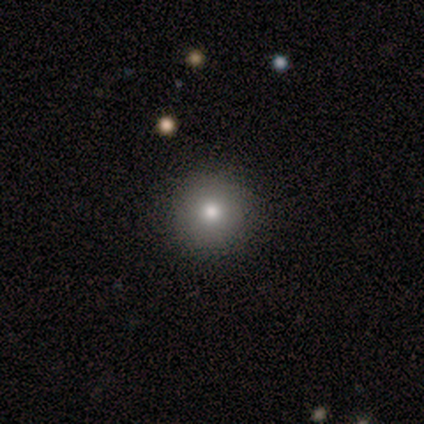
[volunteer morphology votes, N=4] This appears to be a smooth galaxy with no disk features (75%) that is round (100%). Merging: none (100%).